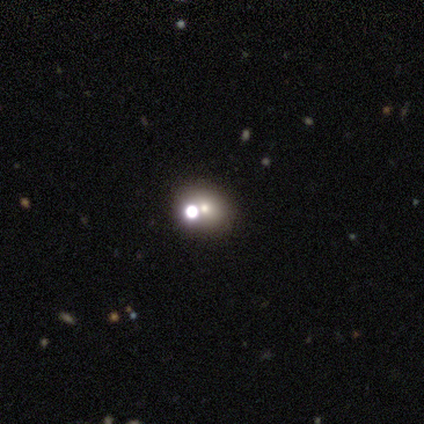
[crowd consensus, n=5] Smooth or featured: smooth — 80% (star or artifact — 20%)
How rounded: round — 100%
Merging: none — 75% (merger — 25%)